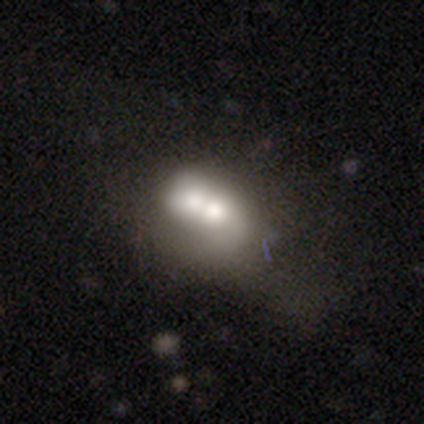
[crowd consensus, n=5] smooth_or_featured: featured or disk (p=0.60) [alt: smooth p=0.40]
disk_edge_on: no (p=1.00)
bar: no (p=1.00)
has_spiral_arms: no (p=0.67) [alt: yes p=0.33]
bulge_size: moderate (p=1.00)
merging: merger (p=0.60) [alt: none p=0.40]